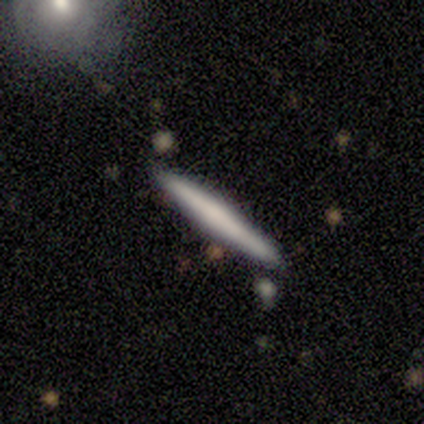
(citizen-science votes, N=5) Q: Smooth or featured?
A: featured or disk (60%); runner-up: smooth (40%)
Q: Edge-on disk?
A: yes (100%)
Q: Edge-on bulge?
A: none (67%); runner-up: rounded (33%)
Q: Merging?
A: none (100%)